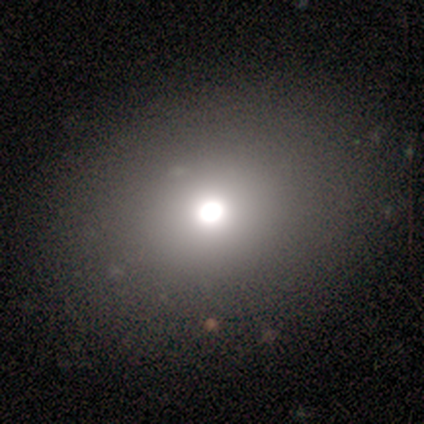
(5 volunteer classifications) A smooth galaxy with no disk features (80%) that is in between round and cigar-shaped (75%).

Vote fractions:
- Smooth or featured? smooth: 80% / featured or disk: 20% / star or artifact: 0%
- How rounded? in between: 75% / round: 25% / cigar-shaped: 0%
- Merging? none: 100% / minor disturbance: 0% / major disturbance: 0% / merger: 0%